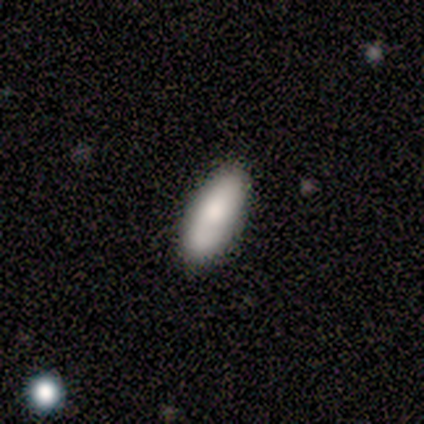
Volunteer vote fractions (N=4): Morphology: type=smooth (75%); roundness=in between (100%); merging=none (75%).